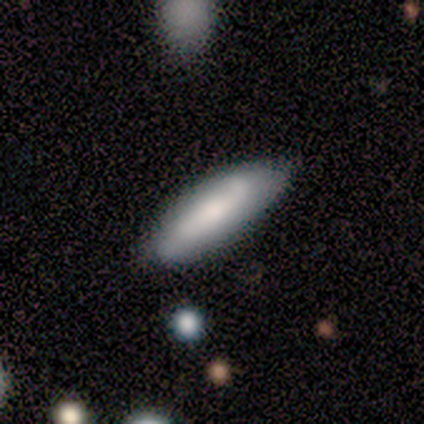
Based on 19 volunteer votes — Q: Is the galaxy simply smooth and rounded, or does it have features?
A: smooth — 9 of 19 (47%).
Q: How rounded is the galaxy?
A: cigar-shaped — 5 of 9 (56%).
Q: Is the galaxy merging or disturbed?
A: none — 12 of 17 (71%).